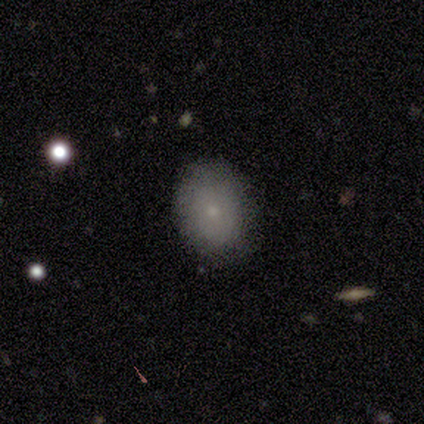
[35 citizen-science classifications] smooth-or-featured: smooth: 80% | featured or disk: 17% | star or artifact: 3%
  how-rounded: in between: 68% | round: 29% | cigar-shaped: 4%
  merging: none: 94% | minor disturbance: 3% | major disturbance: 3% | merger: 0%